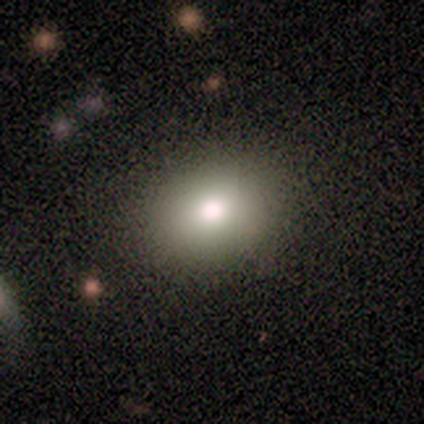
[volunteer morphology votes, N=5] Smooth or featured? 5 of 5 (100%) said smooth. How rounded? 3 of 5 (60%) said round. Merging? 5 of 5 (100%) said none.